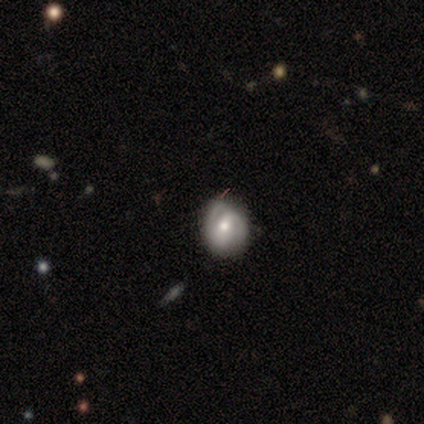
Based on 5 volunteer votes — smooth_or_featured: featured or disk (p=0.60) [alt: smooth p=0.20]
disk_edge_on: no (p=1.00)
bar: no (p=0.67) [alt: weak p=0.33]
has_spiral_arms: no (p=0.67) [alt: yes p=0.33]
bulge_size: moderate (p=0.67) [alt: small p=0.33]
merging: none (p=0.50) [tied with: minor disturbance p=0.50]